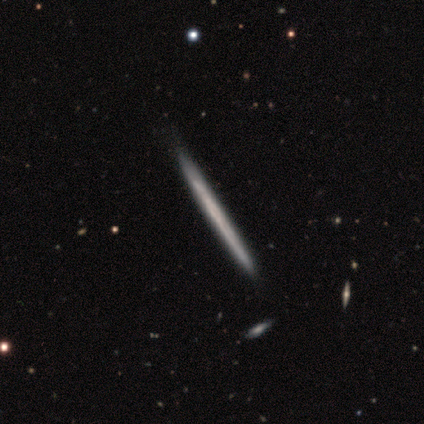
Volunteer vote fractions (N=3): A featured or disk galaxy (100%) viewed edge-on (100%) with no central bulge (100%).

Vote fractions:
- Smooth or featured? featured or disk: 100% / smooth: 0% / star or artifact: 0%
- Edge-on disk? yes: 100% / no: 0%
- Edge-on bulge? none: 100% / boxy: 0% / rounded: 0%
- Merging? minor disturbance: 67% / none: 33% / major disturbance: 0% / merger: 0%